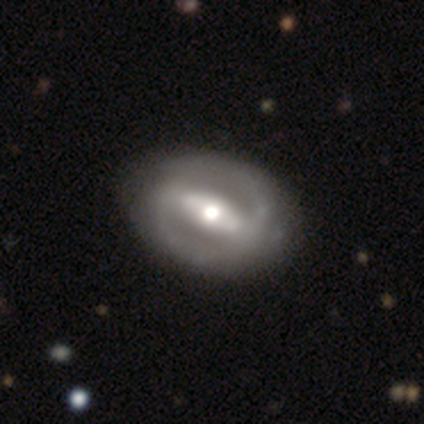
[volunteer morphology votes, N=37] This appears to be a featured or disk galaxy (81%) with a strong bar (70%), 2 (75%) tight (44%) spiral arms (53%) and a moderate central bulge (67%). Merging: none (81%).